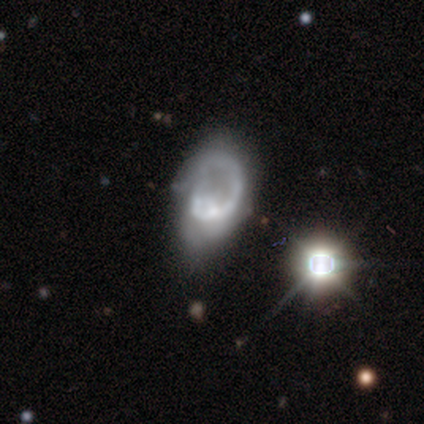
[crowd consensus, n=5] A smooth galaxy with no disk features (60%) that is in between round and cigar-shaped (100%).

Vote fractions:
- Smooth or featured? smooth: 60% / featured or disk: 20% / star or artifact: 20%
- How rounded? in between: 100% / round: 0% / cigar-shaped: 0%
- Merging? major disturbance: 50% / none: 25% / minor disturbance: 25% / merger: 0%